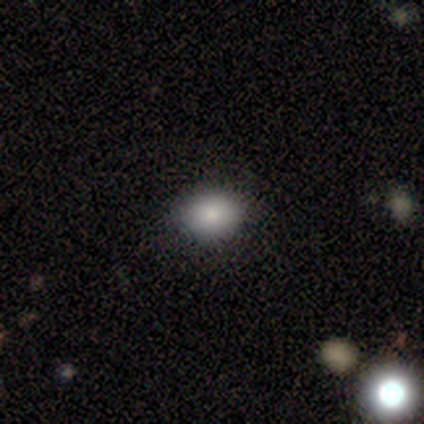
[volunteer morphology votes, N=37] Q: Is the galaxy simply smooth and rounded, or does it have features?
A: smooth — 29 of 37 (78%).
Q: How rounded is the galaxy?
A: round — 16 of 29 (55%).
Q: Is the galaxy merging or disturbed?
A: none — 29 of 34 (85%).